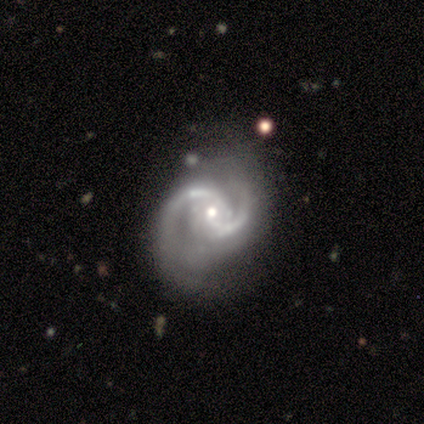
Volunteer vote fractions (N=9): smooth_or_featured: featured or disk (p=1.00)
disk_edge_on: no (p=0.89) [alt: yes p=0.11]
bar: no (p=0.88) [alt: weak p=0.12]
has_spiral_arms: yes (p=1.00)
spiral_winding: medium (p=0.62) [alt: tight p=0.38]
spiral_arm_count: 2 (p=1.00)
bulge_size: small (p=0.62) [alt: moderate p=0.38]
merging: none (p=0.78) [alt: minor disturbance p=0.22]